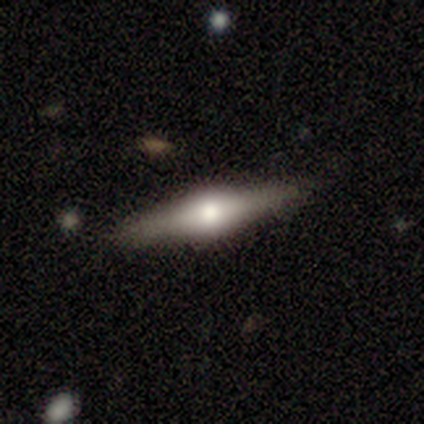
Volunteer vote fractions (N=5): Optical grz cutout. It shows a featured or disk galaxy (100%) viewed edge-on (100%) with a rounded central bulge (100%). Merging: none (100%).